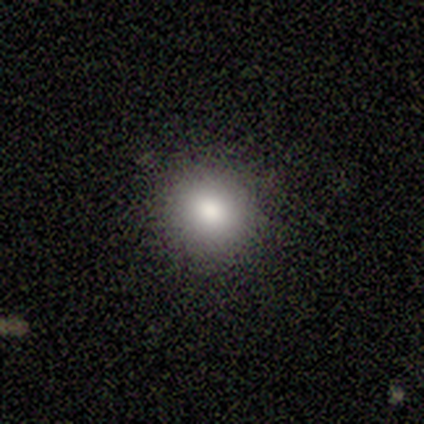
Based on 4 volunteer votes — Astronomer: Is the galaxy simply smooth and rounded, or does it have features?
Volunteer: smooth — 75%.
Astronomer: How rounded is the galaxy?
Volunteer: round — 100%.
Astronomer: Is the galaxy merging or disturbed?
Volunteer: none — 100%.